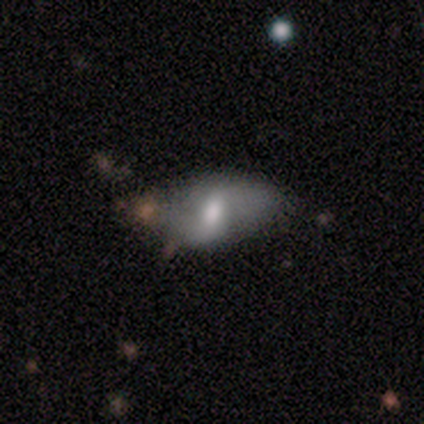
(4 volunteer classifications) Smooth or featured: smooth — 75% (featured or disk — 25%)
How rounded: in between — 100%
Merging: minor disturbance — 50% (none — 25%)